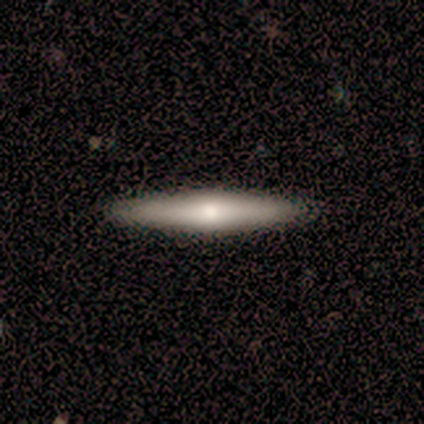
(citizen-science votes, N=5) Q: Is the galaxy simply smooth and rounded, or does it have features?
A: smooth — 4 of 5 (80%).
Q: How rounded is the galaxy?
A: cigar-shaped — 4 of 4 (100%).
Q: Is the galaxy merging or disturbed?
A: none — 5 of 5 (100%).